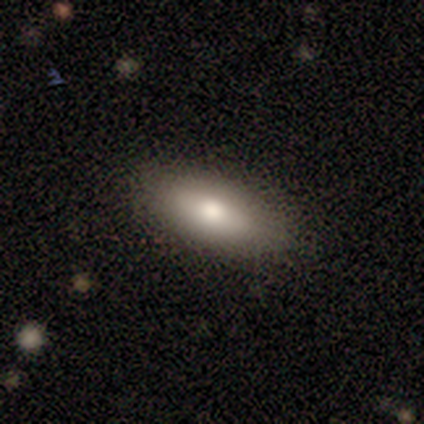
This appears to be a smooth galaxy with no disk features (79%) that is in between round and cigar-shaped (68%). Merging: none (97%).